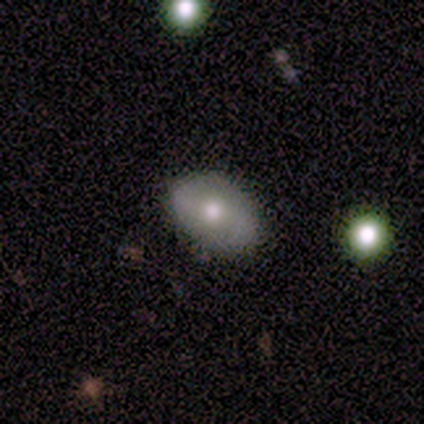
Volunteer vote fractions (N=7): Morphology: type=featured or disk (71%); edge-on=no (100%); bar=weak (60%); spiral arms=yes (80%); winding=loose (75%); arm count=2 (100%); bulge=moderate (80%); merging=none (100%).